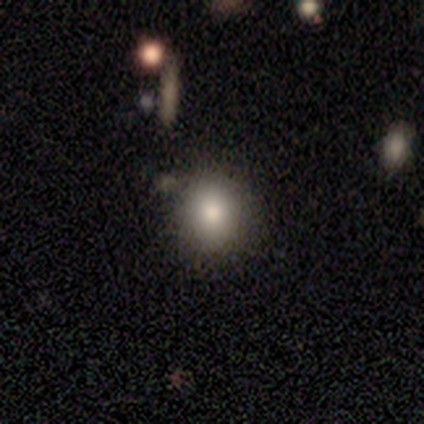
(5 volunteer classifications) Q: Smooth or featured?
A: smooth (100%)
Q: How rounded?
A: round (80%); runner-up: in between (20%)
Q: Merging?
A: none (100%)